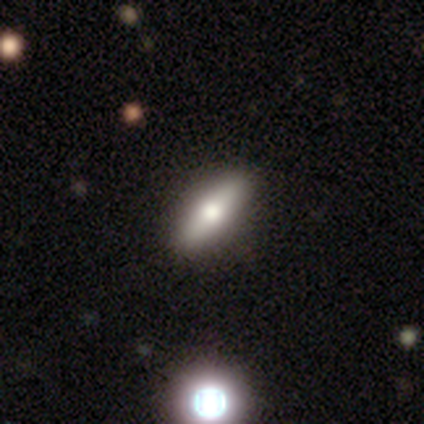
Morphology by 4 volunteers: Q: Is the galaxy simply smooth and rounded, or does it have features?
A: smooth — 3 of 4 (75%).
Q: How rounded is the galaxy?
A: cigar-shaped — 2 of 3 (67%).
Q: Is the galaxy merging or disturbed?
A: none — 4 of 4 (100%).